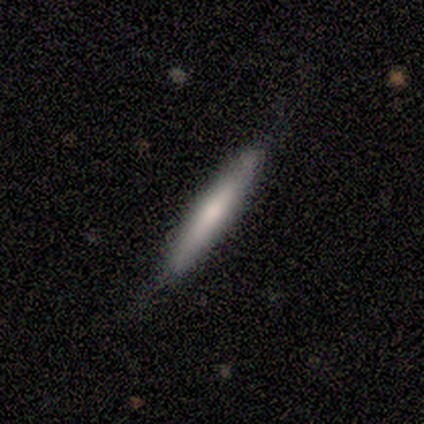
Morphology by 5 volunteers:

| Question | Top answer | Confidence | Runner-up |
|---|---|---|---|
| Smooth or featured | smooth | 60% | featured or disk (40%) |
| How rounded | cigar-shaped | 100% | — |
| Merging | none | 80% | minor disturbance (20%) |